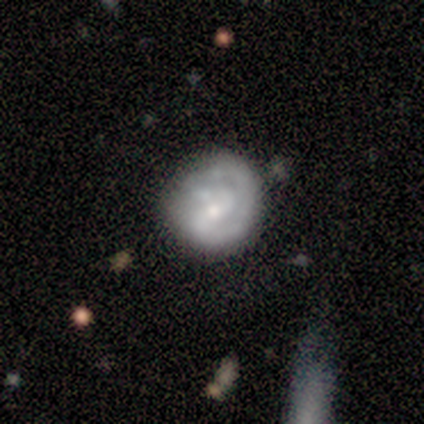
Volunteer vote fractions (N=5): Volunteers were most divided on "spiral winding" (2-way tie): tight: 50%, medium: 50%, loose: 0%. Remaining: edge-on disk — no (100%); bar — weak (100%); spiral arms — yes (100%); smooth or featured — featured or disk (80%); spiral arm count — 2 (75%); bulge size — moderate (75%); merging — minor disturbance (40%).